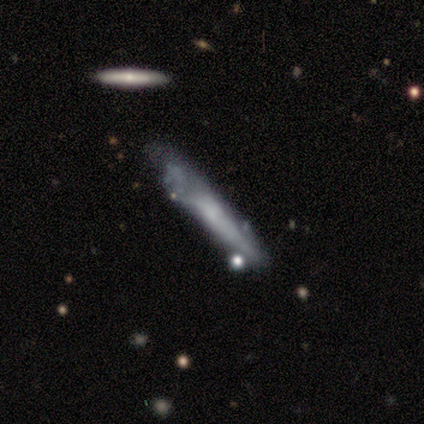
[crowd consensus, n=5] smooth-or-featured: smooth: 80% | featured or disk: 20% | star or artifact: 0%
  how-rounded: cigar-shaped: 100% | round: 0% | in between: 0%
  merging: none: 60% | minor disturbance: 40% | major disturbance: 0% | merger: 0%